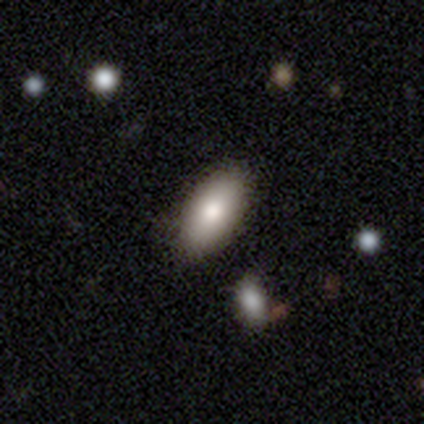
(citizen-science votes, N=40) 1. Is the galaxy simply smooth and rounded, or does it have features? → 82% smooth, 10% star or artifact, 8% featured or disk.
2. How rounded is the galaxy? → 91% in between, 6% cigar-shaped, 3% round.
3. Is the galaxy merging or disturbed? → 83% none, 11% minor disturbance, 3% major disturbance, 3% merger.